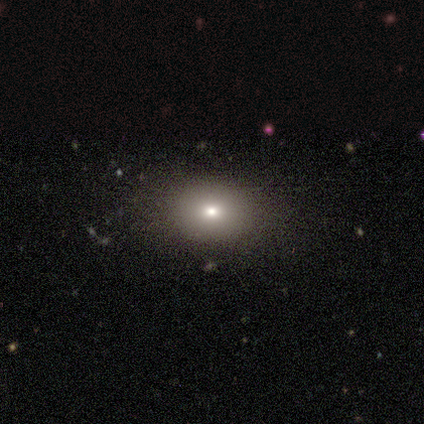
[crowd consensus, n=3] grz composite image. It shows a smooth galaxy with no disk features (100%) that is in between round and cigar-shaped (67%). Merging: none (33%, tied with minor disturbance and major disturbance).